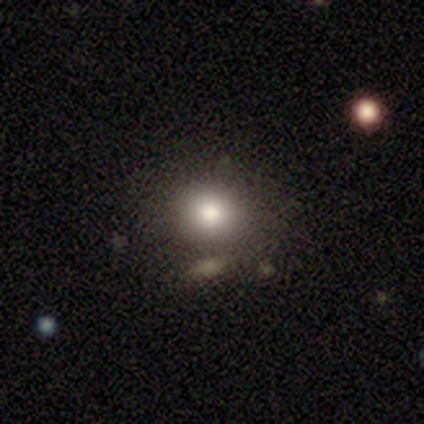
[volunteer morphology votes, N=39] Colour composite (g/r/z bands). It shows a smooth galaxy with no disk features (82%) that is round (72%). Merging: none (91%).